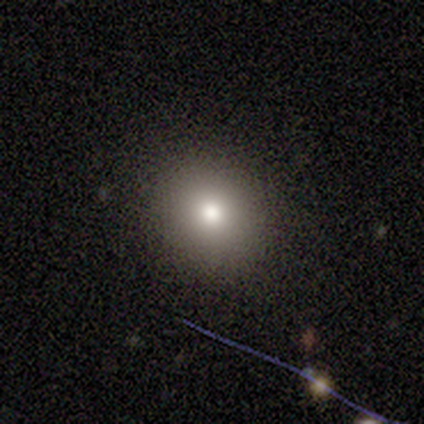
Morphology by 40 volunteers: smooth 75%, featured or disk 12%, star or artifact 12%. Down the decision tree: how rounded — round (83%); merging — none (89%).